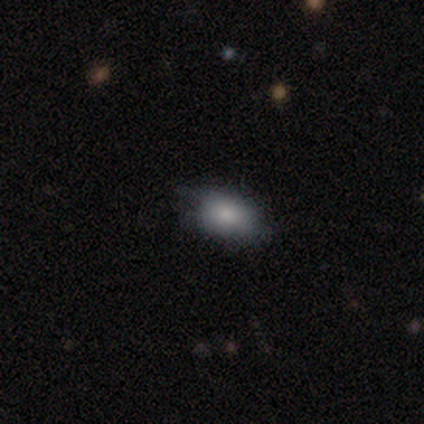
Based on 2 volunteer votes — A smooth galaxy with no disk features (100%) that is in between round and cigar-shaped (100%).

Vote fractions:
- Smooth or featured? smooth: 100% / featured or disk: 0% / star or artifact: 0%
- How rounded? in between: 100% / round: 0% / cigar-shaped: 0%
- Merging? none: 100% / minor disturbance: 0% / major disturbance: 0% / merger: 0%